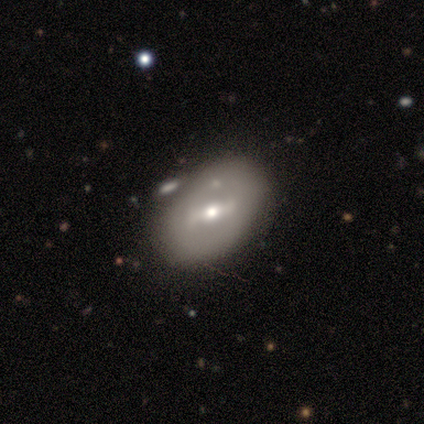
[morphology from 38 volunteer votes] smooth-or-featured: featured or disk: 63% | smooth: 34% | star or artifact: 3%
  disk-edge-on: no: 100% | yes: 0%
    bar: strong: 50% | weak: 42% | no: 8%
    has-spiral-arms: no: 79% | yes: 21%
    bulge-size: moderate: 62% | small: 29% | dominant: 4% | none: 4% | large: 0%
  merging: none: 65% | minor disturbance: 16% | merger: 8% | major disturbance: 0%